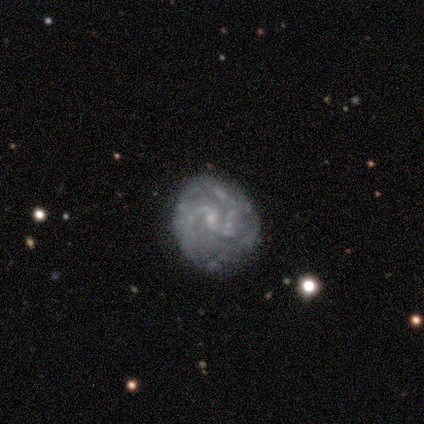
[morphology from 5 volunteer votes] This is marginally a smooth galaxy (40%, tied with featured or disk). How rounded: possibly round (50%, tied with in between). Merging: likely minor disturbance (75%).